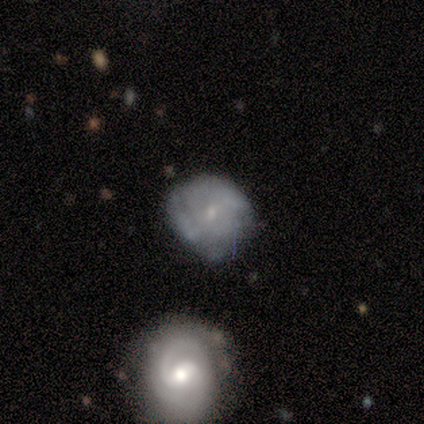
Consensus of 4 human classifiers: smooth_or_featured: featured or disk (p=0.75) [alt: smooth p=0.25]
disk_edge_on: no (p=1.00)
bar: weak (p=0.67) [alt: no p=0.33]
has_spiral_arms: yes (p=1.00)
spiral_winding: medium (p=0.67) [alt: tight p=0.33]
spiral_arm_count: 2 (p=0.33) [tied with: 3 p=0.33, can't tell p=0.33]
bulge_size: small (p=0.67) [alt: moderate p=0.33]
merging: none (p=0.75) [alt: major disturbance p=0.25]